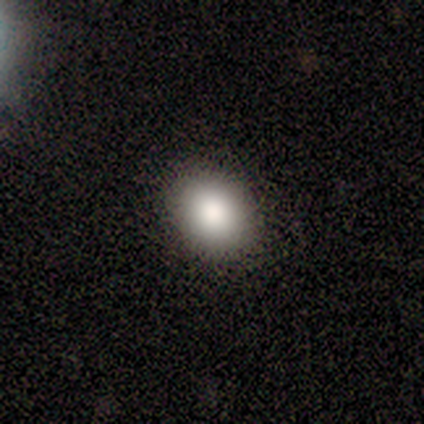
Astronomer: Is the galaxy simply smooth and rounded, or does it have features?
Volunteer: smooth — 60%.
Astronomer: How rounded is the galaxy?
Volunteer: in between — 67%.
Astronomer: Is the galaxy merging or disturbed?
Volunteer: none — 100%.